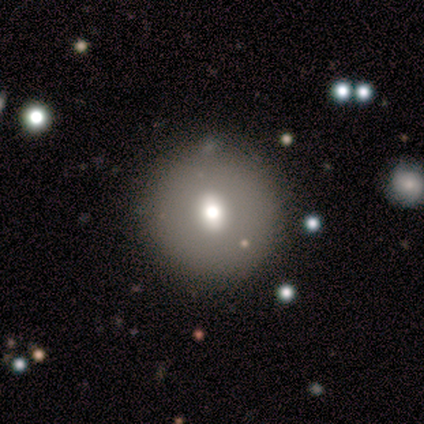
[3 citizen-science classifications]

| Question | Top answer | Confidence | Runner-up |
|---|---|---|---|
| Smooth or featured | smooth | 100% | — |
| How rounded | round | 67% | in between (33%) |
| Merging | none | 100% | — |